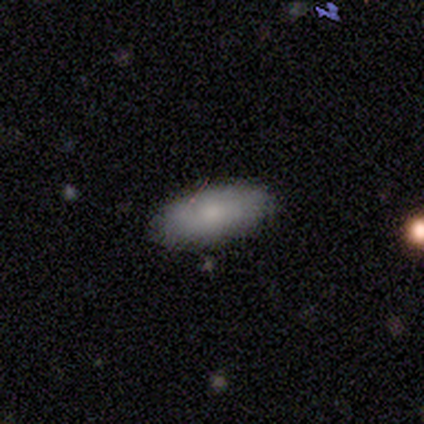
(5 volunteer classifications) This is clearly a smooth galaxy (80%). How rounded: likely in between (75%). Merging: clearly none (100%).